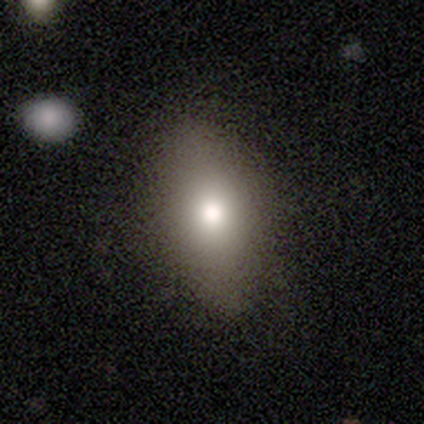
Volunteers were most divided on "smooth or featured": smooth: 65%, featured or disk: 22%, star or artifact: 14%. More confident: how rounded — in between (79%); merging — none (78%).